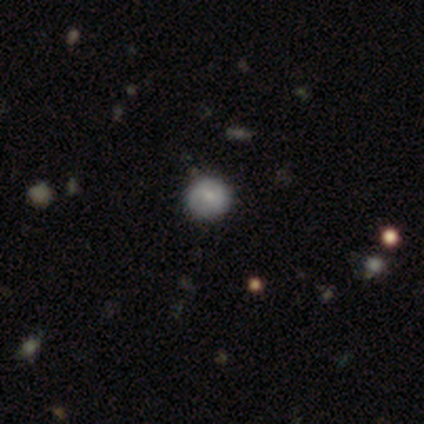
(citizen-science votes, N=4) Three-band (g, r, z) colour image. It shows a smooth galaxy with no disk features (100%) that is round (75%). Merging: none (100%).